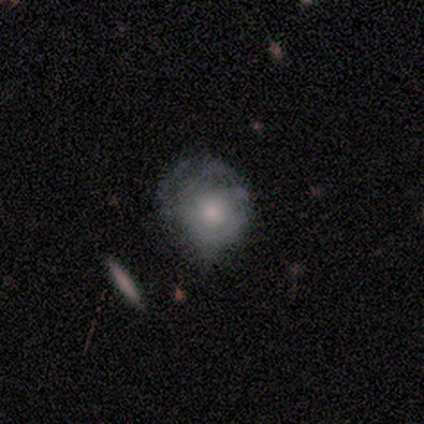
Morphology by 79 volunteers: smooth-or-featured: smooth: 48% | featured or disk: 47% | star or artifact: 5%
  how-rounded: round: 82% | in between: 16% | cigar-shaped: 3%
  merging: none: 52% | minor disturbance: 32% | major disturbance: 13% | merger: 3%